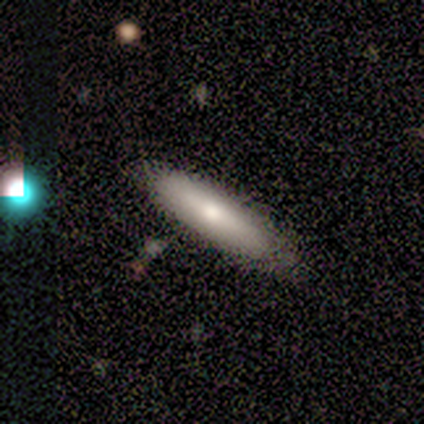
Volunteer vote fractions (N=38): This appears to be a smooth galaxy with no disk features (71%) that is cigar-shaped (67%). Merging: none (74%).